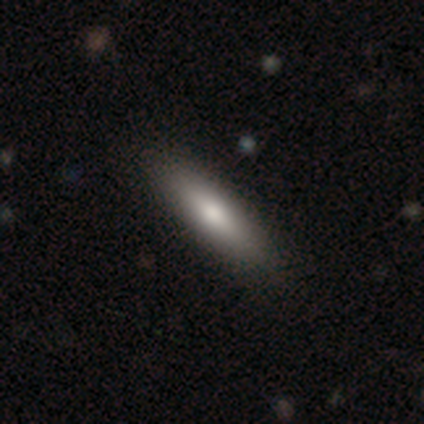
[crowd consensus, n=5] Smooth or featured: smooth — 80% (featured or disk — 20%)
How rounded: cigar-shaped — 100%
Merging: none — 100%